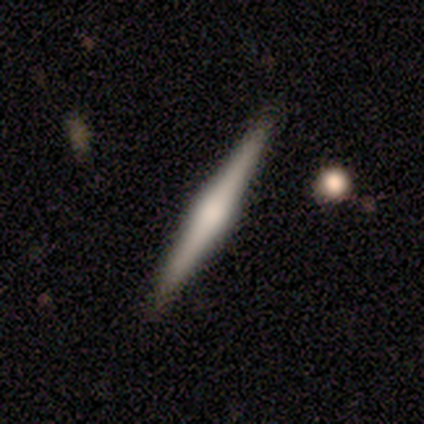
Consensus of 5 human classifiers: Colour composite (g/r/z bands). It shows a featured or disk galaxy (60%) viewed edge-on (100%) with a boxy central bulge (67%). Merging: none (80%).